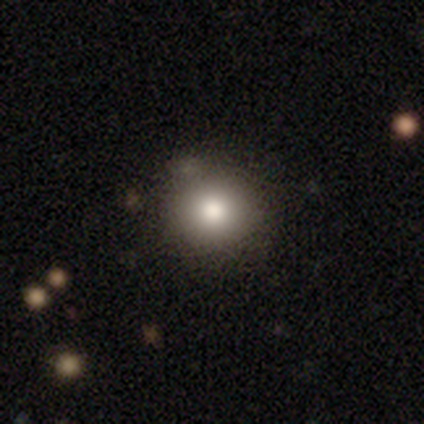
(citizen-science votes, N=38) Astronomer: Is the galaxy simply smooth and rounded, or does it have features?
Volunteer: smooth — 74%.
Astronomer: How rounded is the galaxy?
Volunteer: round — 93%.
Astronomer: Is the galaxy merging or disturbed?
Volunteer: none — 80%.